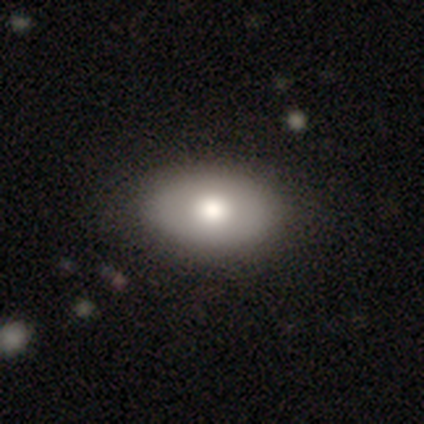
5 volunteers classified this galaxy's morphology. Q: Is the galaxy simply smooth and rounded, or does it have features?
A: smooth — 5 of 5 (100%).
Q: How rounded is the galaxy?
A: in between — 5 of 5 (100%).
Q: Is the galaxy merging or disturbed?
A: none — 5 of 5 (100%).